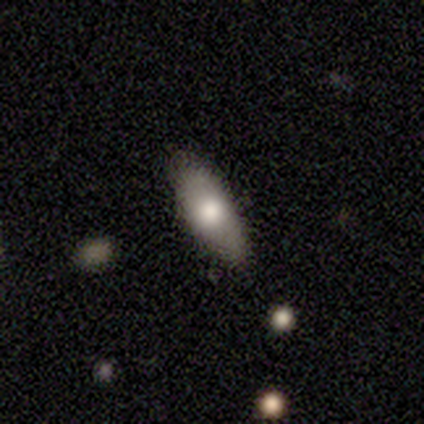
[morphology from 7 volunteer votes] type=smooth (57%); roundness=in between (75%); merging=none (67%).